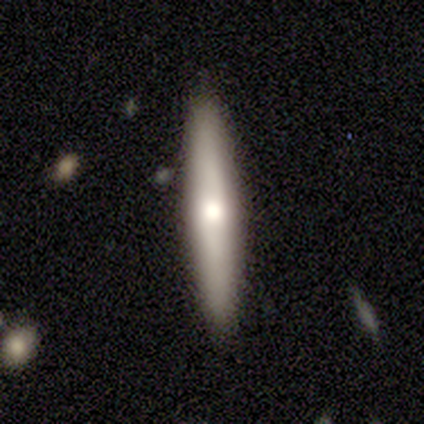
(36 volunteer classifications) Smooth or featured?
  - smooth: 50% *
  - featured or disk: 42%
  - star or artifact: 8%
How rounded?
  - cigar-shaped: 83% *
  - in between: 17%
  - round: 0%
Merging?
  - none: 94% *
  - minor disturbance: 6%
  - major disturbance: 0%
  - merger: 0%